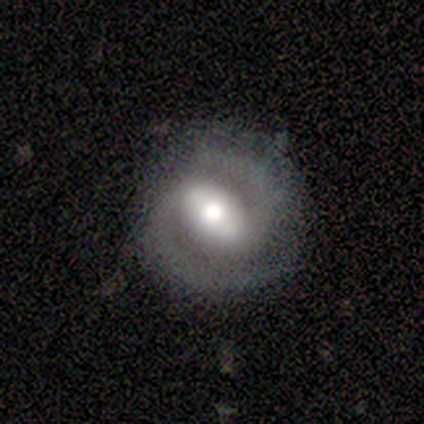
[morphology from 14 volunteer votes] A featured or disk galaxy (86%) with a weak bar (50%), 2 (100%) medium (64%) spiral arms (92%) and a moderate central bulge (92%).

Vote fractions:
- Smooth or featured? featured or disk: 86% / smooth: 14% / star or artifact: 0%
- Edge-on disk? no: 100% / yes: 0%
- Bar? weak: 50% / strong: 33% / no: 17%
- Spiral arms? yes: 92% / no: 8%
- Spiral winding? medium: 64% / tight: 36% / loose: 0%
- Spiral arm count? 2: 100% / 1: 0% / 3: 0% / 4: 0% / more than 4: 0% / can't tell: 0%
- Bulge size? moderate: 92% / large: 8% / dominant: 0% / small: 0% / none: 0%
- Merging? none: 86% / minor disturbance: 14% / major disturbance: 0% / merger: 0%